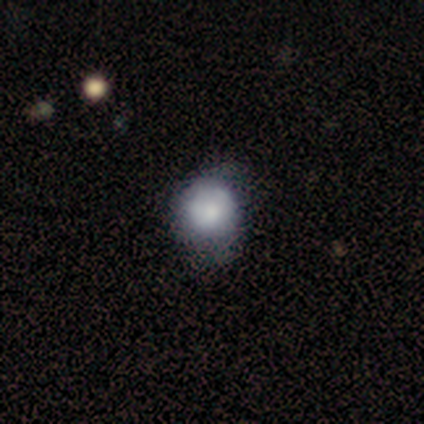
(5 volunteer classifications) Smooth or featured? featured or disk (60%)
Edge-on disk? no (100%)
Bar? no (100%)
Spiral arms? no (67%)
Bulge size? moderate (33%, tied with small and none)
Merging? none (60%)